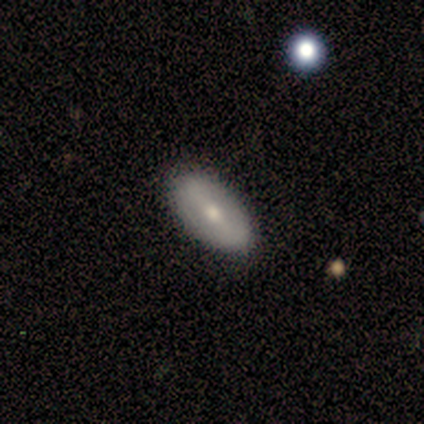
smooth_or_featured: featured or disk (p=0.75) [alt: smooth p=0.25]
disk_edge_on: no (p=1.00)
bar: strong (p=0.67) [alt: no p=0.33]
has_spiral_arms: no (p=1.00)
bulge_size: small (p=0.67) [alt: moderate p=0.33]
merging: none (p=1.00)